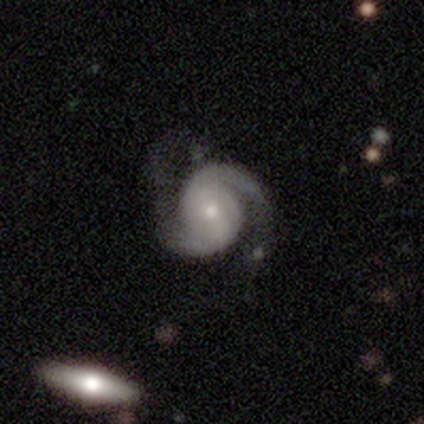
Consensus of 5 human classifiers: featured or disk 100%, smooth 0%, star or artifact 0%. Down the decision tree: edge-on disk — no (100%); bar — no (60%); spiral arms — yes (100%); spiral arm count — 2 (100%); spiral winding — medium (60%); bulge size — moderate (60%); merging — none (60%).